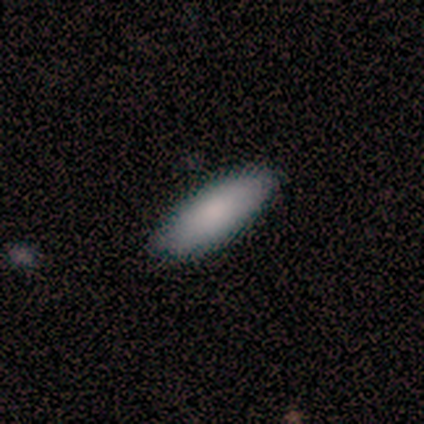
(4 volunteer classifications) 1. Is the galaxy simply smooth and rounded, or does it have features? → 100% smooth, 0% featured or disk, 0% star or artifact.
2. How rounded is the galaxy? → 100% in between, 0% round, 0% cigar-shaped.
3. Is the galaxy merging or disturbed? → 75% none, 25% minor disturbance, 0% major disturbance, 0% merger.